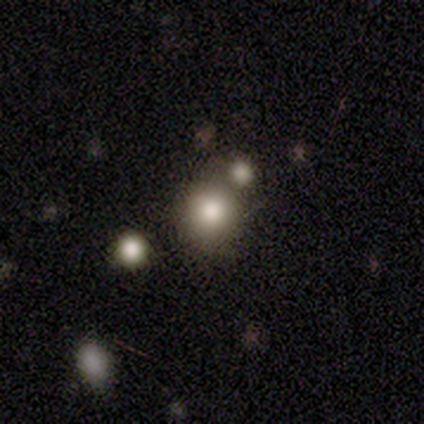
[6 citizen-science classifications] Smooth or featured: smooth — 50% (featured or disk — 33%)
How rounded: round — 100%
Merging: merger — 60% (none — 40%)